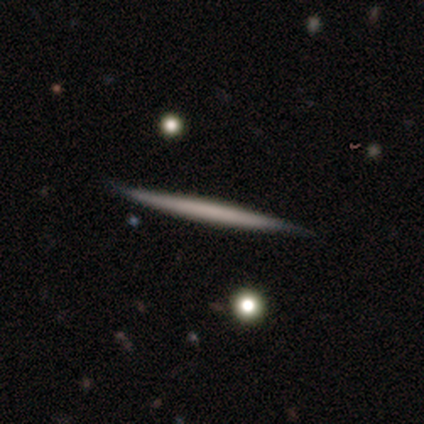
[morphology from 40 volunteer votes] A smooth galaxy with no disk features (50%) that is cigar-shaped (100%). Merging: none (90%).